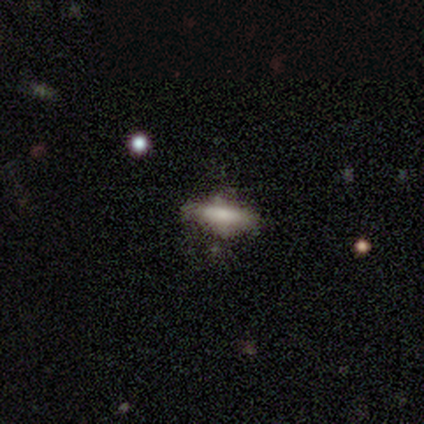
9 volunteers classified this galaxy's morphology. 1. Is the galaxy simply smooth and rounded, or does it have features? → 78% smooth, 11% featured or disk, 11% star or artifact.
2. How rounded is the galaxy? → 71% cigar-shaped, 29% in between, 0% round.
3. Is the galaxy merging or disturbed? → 100% none, 0% minor disturbance, 0% major disturbance, 0% merger.